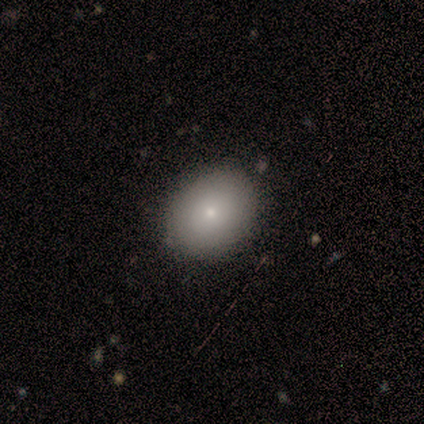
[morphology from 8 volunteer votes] Smooth or featured? 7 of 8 (88%) said smooth. How rounded? 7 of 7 (100%) said round. Merging? 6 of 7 (86%) said none.